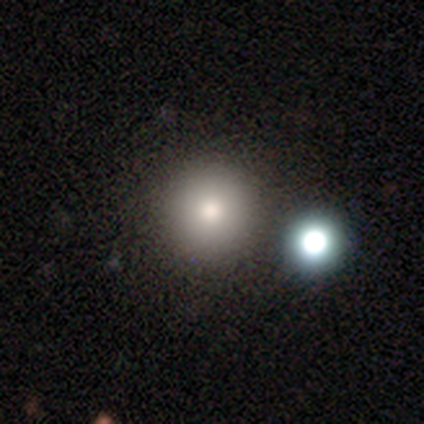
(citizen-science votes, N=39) Smooth or featured: smooth — 69% (featured or disk — 18%)
How rounded: round — 96% (in between — 4%)
Merging: none — 82% (merger — 12%)